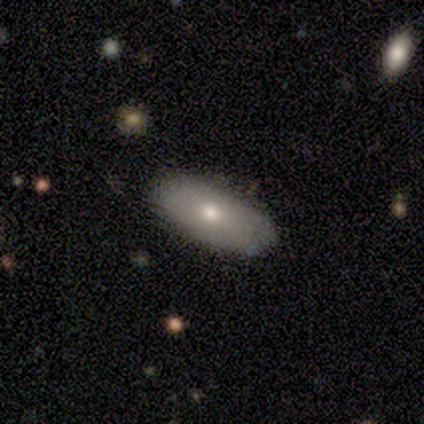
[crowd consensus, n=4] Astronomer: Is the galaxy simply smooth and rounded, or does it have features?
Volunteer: smooth — 75%.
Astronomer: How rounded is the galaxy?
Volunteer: in between — 100%.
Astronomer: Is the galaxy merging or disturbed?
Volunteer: none — 100%.